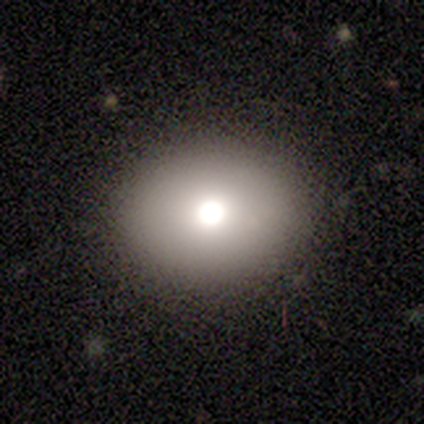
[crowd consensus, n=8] This is possibly a smooth galaxy (50%). How rounded: possibly round (50%, tied with in between). Merging: clearly none (100%).